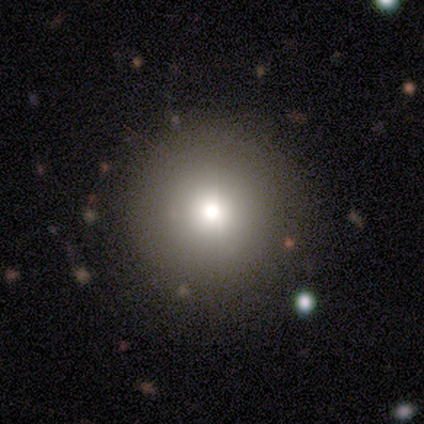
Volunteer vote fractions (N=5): Morphology: type=smooth (60%); roundness=round (100%); merging=none (100%).